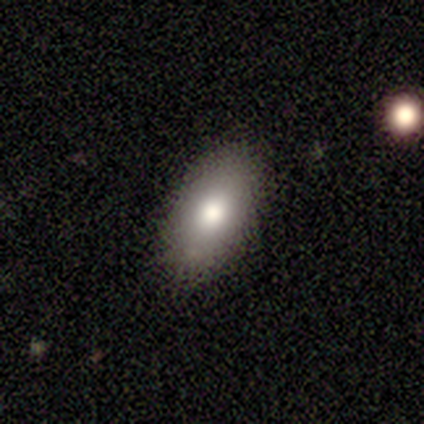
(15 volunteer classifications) Morphology: type=smooth (93%); roundness=in between (93%); merging=none (79%).